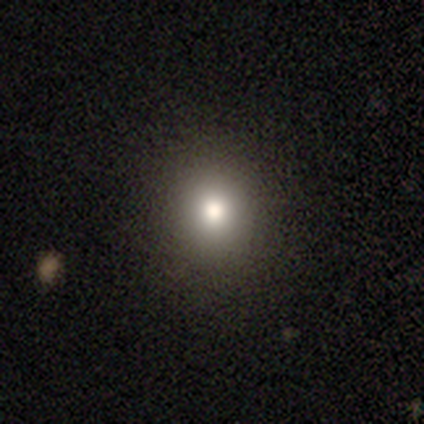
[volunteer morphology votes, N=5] This is clearly a smooth galaxy (80%). How rounded: likely round (75%). Merging: clearly none (100%).